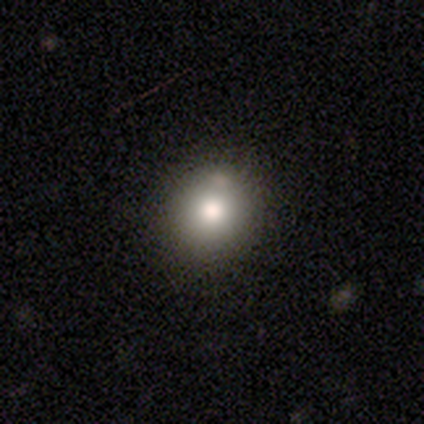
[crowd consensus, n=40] Volunteers were most divided on "smooth or featured": smooth: 70%, featured or disk: 22%, star or artifact: 8%. More confident: how rounded — round (89%); merging — none (86%).